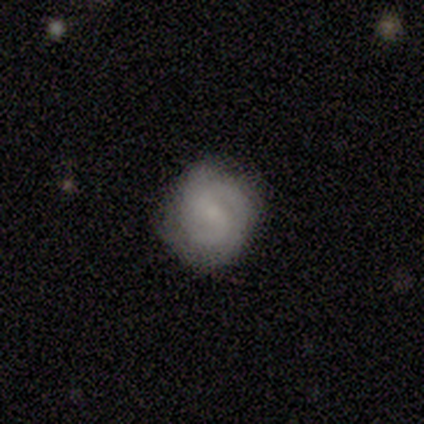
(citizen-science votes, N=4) Volunteers were most divided on "merging": minor disturbance: 50%, none: 25%, merger: 25%, major disturbance: 0%. More confident: edge-on disk — no (100%); spiral arms — yes (100%); spiral arm count — 2 (100%); bulge size — small (100%); smooth or featured — featured or disk (75%); bar — weak (67%); spiral winding — medium (67%).